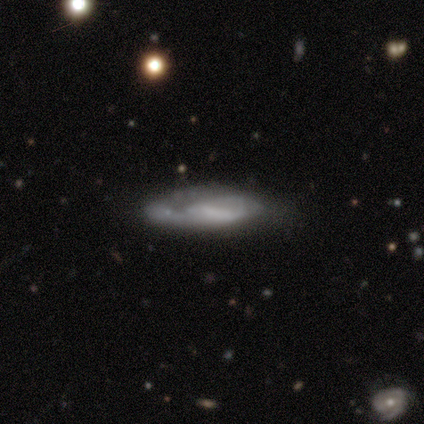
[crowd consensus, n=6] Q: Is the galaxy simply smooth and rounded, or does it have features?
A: featured or disk — 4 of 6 (67%).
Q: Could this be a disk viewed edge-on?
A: yes — 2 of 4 (50%, tied with no).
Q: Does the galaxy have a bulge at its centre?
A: none — 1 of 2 (50%, tied with rounded).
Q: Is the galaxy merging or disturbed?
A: none — 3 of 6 (50%).